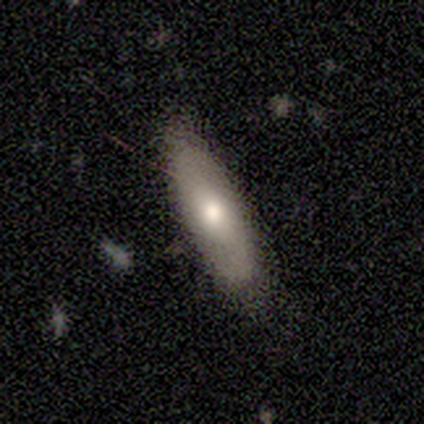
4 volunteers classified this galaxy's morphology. This appears to be a smooth galaxy with no disk features (50%) that is in between round and cigar-shaped (50%, tied with cigar-shaped). Merging: none (67%).